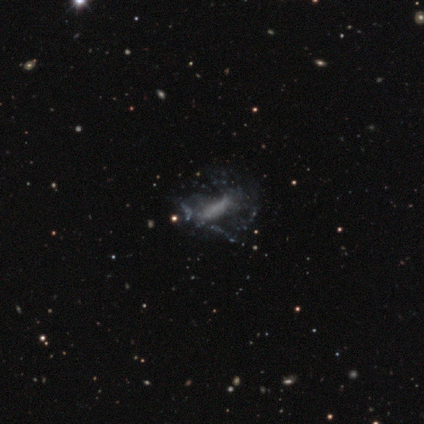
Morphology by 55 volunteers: Smooth or featured? 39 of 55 (71%) said featured or disk. Edge-on disk? 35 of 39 (90%) said no. Bar? 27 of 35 (77%) said no. Spiral arms? 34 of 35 (97%) said no. Bulge size? 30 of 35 (86%) said none. Merging? 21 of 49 (43%) said none.